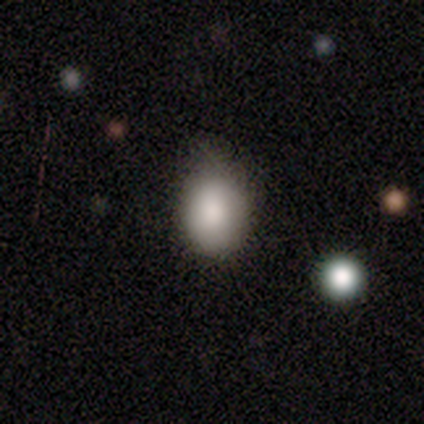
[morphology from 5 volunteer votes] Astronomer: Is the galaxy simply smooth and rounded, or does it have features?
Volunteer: smooth — 100%.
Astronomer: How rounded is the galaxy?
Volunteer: in between — 60% (runner-up: round, 40%).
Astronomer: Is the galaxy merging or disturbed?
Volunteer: none — 80%.